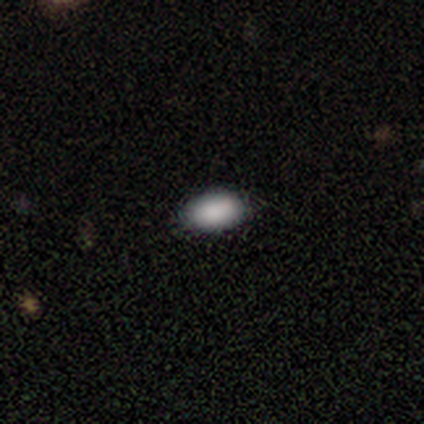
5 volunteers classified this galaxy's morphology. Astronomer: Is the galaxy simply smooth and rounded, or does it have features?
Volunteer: smooth — 100%.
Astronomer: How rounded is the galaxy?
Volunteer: in between — 100%.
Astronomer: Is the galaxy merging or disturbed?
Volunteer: none — 80%.